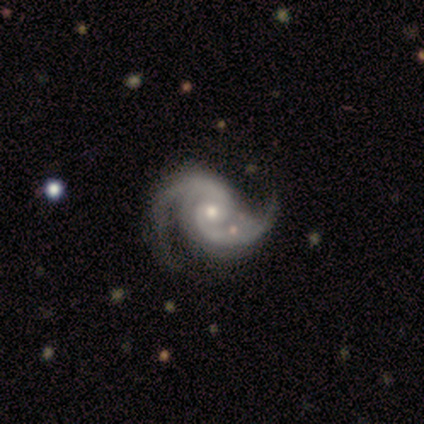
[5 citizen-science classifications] This appears to be a featured or disk galaxy (60%) with no bar (100%), 2 (100%) medium (67%) spiral arms (100%) and a small central bulge (67%). Merging: none (75%).